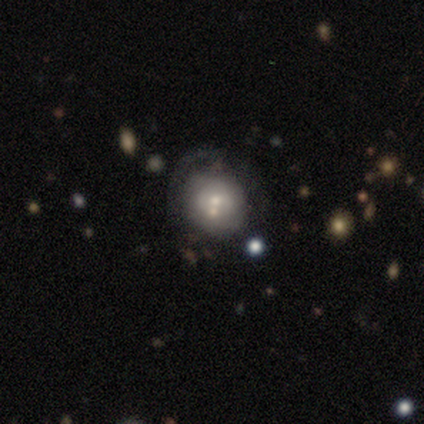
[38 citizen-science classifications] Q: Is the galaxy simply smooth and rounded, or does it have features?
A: featured or disk — 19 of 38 (50%).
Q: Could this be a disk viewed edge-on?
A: no — 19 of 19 (100%).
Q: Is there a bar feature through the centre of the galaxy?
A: no — 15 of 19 (79%).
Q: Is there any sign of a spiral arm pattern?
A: no — 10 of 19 (53%).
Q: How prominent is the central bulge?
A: moderate — 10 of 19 (53%).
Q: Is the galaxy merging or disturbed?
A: none — 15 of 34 (44%).